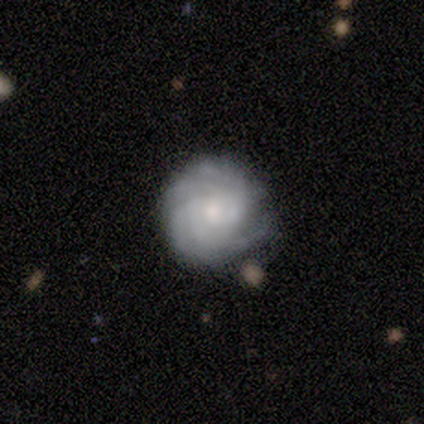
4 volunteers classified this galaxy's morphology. featured or disk 100%, smooth 0%, star or artifact 0%. Down the decision tree: edge-on disk — no (100%); bar — weak (50%, tied with no); spiral arms — yes (100%); spiral arm count — 4 (50%); spiral winding — tight (100%); bulge size — moderate (75%); merging — none (75%).